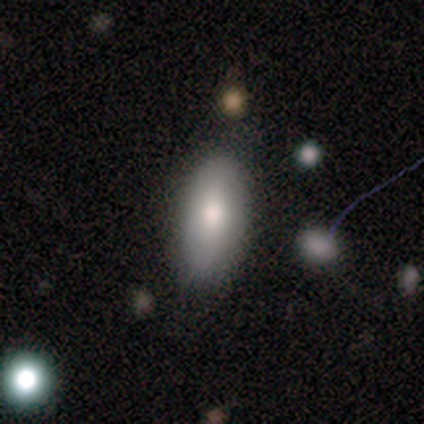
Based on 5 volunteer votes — smooth 100%, featured or disk 0%, star or artifact 0%. Down the decision tree: how rounded — in between (80%); merging — none (80%).